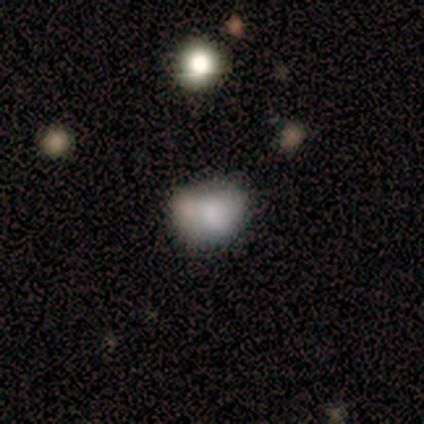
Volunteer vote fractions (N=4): Smooth or featured? 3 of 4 (75%) said smooth. How rounded? 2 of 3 (67%) said round. Merging? 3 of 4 (75%) said none.